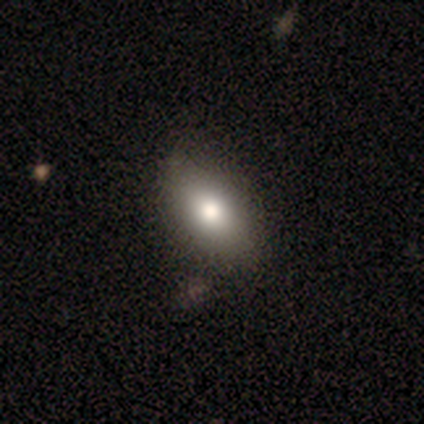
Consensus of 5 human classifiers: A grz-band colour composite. It shows a smooth galaxy with no disk features (60%) that is in between round and cigar-shaped (67%). Merging: none (67%).